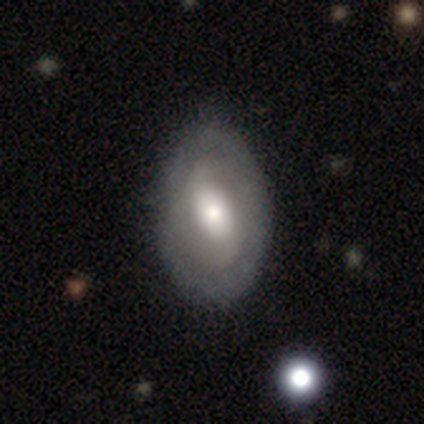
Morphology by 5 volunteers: smooth_or_featured: smooth (p=0.80) [alt: featured or disk p=0.20]
how_rounded: in between (p=1.00)
merging: none (p=0.40) [tied with: minor disturbance p=0.40]